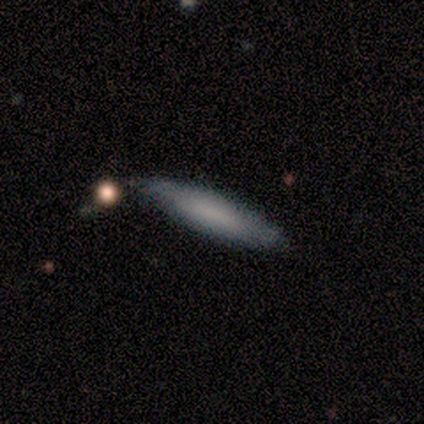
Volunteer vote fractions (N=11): This appears to be a smooth galaxy with no disk features (91%) that is cigar-shaped (60%). Merging: none (82%).